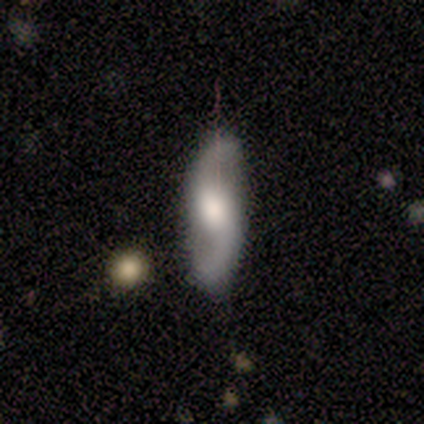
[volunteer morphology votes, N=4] Volunteers were most divided on "bar" (3-way tie): strong: 33%, weak: 33%, no: 33%. More confident: smooth or featured — featured or disk (100%); spiral arms — yes (100%); spiral arm count — 2 (100%); merging — none (100%); edge-on disk — no (75%); spiral winding — loose (67%); bulge size — moderate (67%).